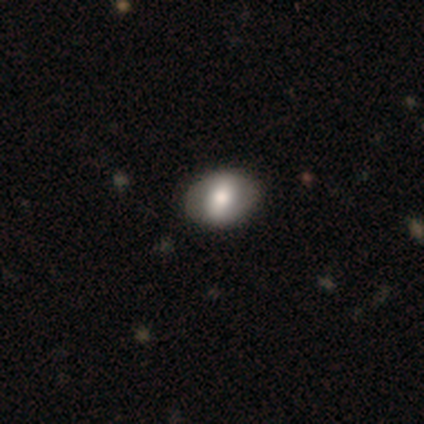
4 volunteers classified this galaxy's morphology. Smooth or featured? 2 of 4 (50%, tied with featured or disk) said smooth. How rounded? 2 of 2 (100%) said in between. Merging? 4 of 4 (100%) said none.